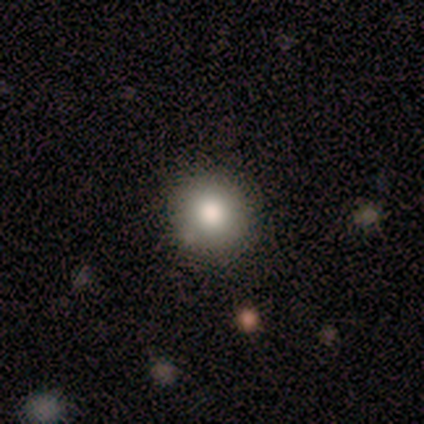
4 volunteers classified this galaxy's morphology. Q: Smooth or featured?
A: smooth (50%); tied with: star or artifact (50%)
Q: How rounded?
A: round (100%)
Q: Merging?
A: none (100%)